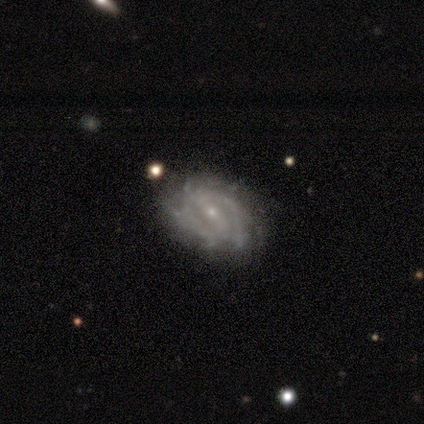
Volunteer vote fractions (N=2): This appears to be a smooth galaxy with no disk features (50%, tied with featured or disk) that is in between round and cigar-shaped (100%). Merging: none (100%).